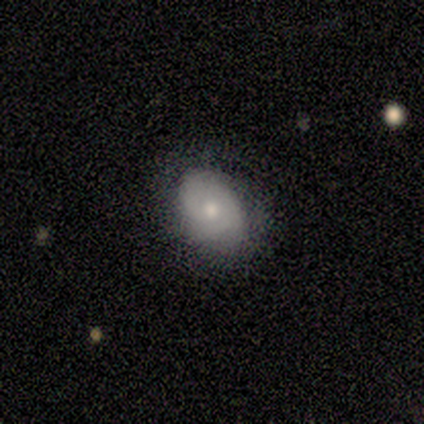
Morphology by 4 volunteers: Smooth or featured? 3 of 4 (75%) said smooth. How rounded? 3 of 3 (100%) said in between. Merging? 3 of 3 (100%) said none.